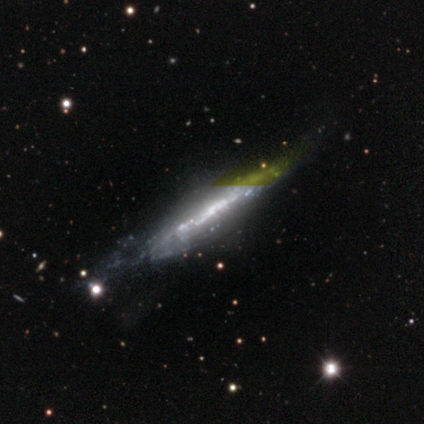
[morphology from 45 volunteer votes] Q: Smooth or featured?
A: featured or disk (71%); runner-up: star or artifact (16%)
Q: Edge-on disk?
A: yes (81%); runner-up: no (19%)
Q: Edge-on bulge?
A: none (50%); runner-up: rounded (38%)
Q: Merging?
A: none (53%); runner-up: minor disturbance (34%)